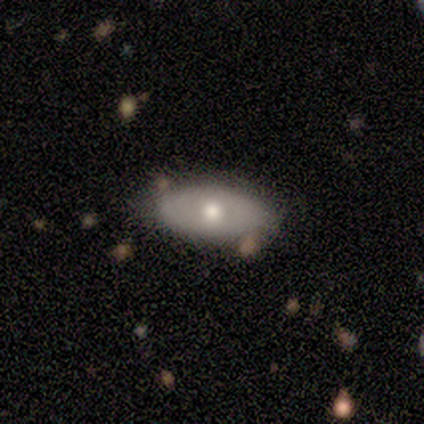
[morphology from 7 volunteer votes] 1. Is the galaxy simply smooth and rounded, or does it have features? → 57% featured or disk, 43% smooth, 0% star or artifact.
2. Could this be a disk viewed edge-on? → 75% no, 25% yes.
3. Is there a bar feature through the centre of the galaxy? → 100% no, 0% strong, 0% weak.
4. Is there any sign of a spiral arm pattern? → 67% no, 33% yes.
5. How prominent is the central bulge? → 33% large (tied), 33% moderate (tied), 33% small (tied), 0% dominant, 0% none.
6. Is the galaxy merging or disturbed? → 86% none, 14% minor disturbance, 0% major disturbance, 0% merger.